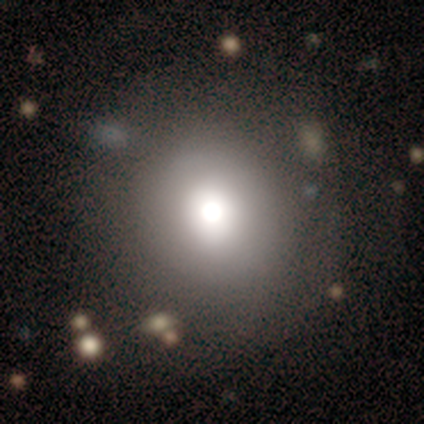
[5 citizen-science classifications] Overall: smooth (80%). How rounded: round (100%). Merging: none (75%).